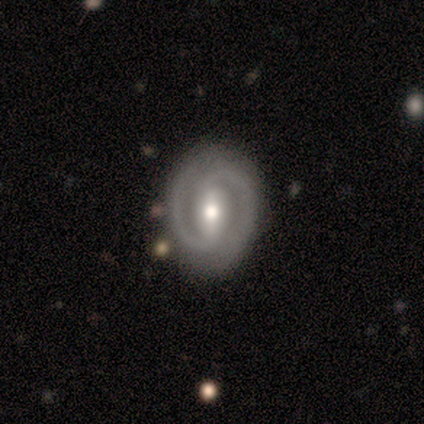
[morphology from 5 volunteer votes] Volunteers were most divided on "bar" (2-way tie): strong: 40%, no: 40%, weak: 20%. More confident: smooth or featured — featured or disk (100%); edge-on disk — no (100%); spiral arm count — 2 (100%); bulge size — moderate (100%); merging — none (100%); spiral arms — yes (80%); spiral winding — tight (75%).